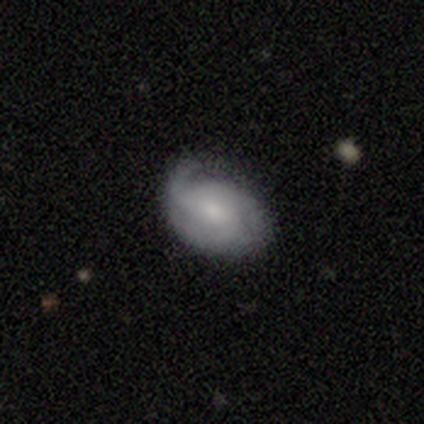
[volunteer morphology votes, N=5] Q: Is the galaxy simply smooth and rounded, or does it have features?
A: featured or disk — 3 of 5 (60%).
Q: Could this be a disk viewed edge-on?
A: no — 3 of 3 (100%).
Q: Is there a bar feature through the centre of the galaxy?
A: weak — 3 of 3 (100%).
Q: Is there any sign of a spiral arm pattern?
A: yes — 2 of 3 (67%).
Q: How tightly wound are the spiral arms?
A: tight — 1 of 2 (50%, tied with loose).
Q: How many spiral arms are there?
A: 1 — 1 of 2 (50%, tied with 3).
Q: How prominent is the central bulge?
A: small — 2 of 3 (67%).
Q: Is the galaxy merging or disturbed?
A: none — 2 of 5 (40%).